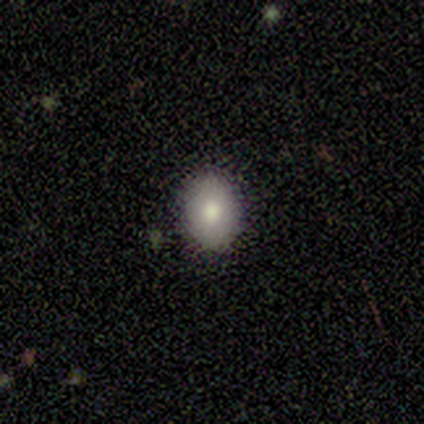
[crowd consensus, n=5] This appears to be a smooth galaxy with no disk features (80%) that is round (50%, tied with in between). Merging: none (80%).